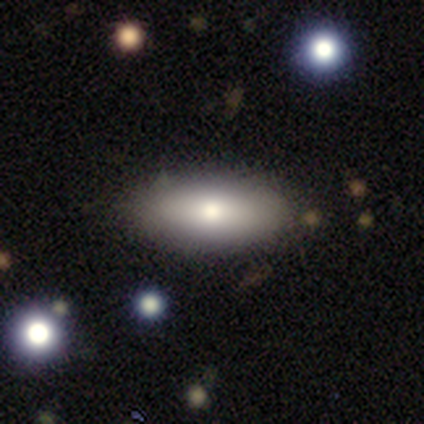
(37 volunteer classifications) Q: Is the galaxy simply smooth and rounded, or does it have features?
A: smooth — 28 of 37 (76%).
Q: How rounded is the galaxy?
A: in between — 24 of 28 (86%).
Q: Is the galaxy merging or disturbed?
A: none — 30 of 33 (91%).